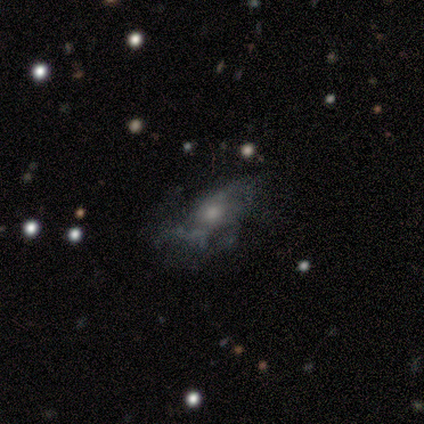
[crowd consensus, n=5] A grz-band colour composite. It shows a smooth galaxy with no disk features (60%) that is in between round and cigar-shaped (100%). Merging: minor disturbance (60%).